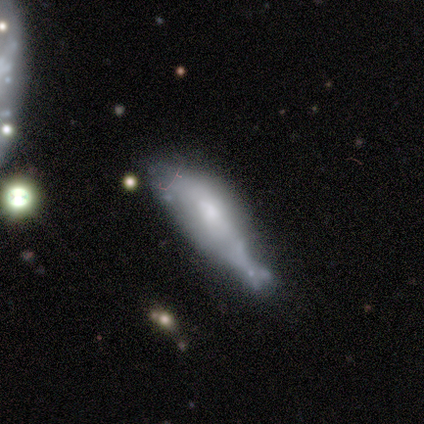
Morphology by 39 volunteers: Volunteers were most divided on "merging": minor disturbance: 41%, merger: 29%, major disturbance: 18%, none: 12%. More confident: spiral arms — no (88%); bar — no (88%); edge-on disk — no (73%); smooth or featured — featured or disk (56%); bulge size — small (50%).